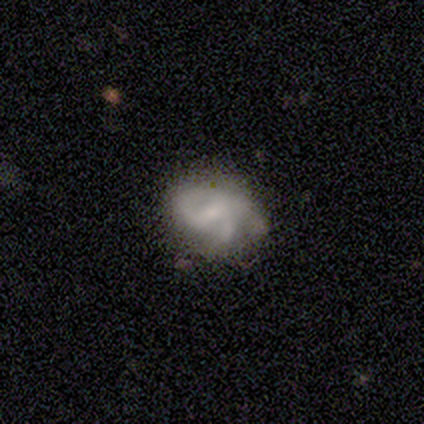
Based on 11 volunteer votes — Smooth or featured? 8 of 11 (73%) said featured or disk. Edge-on disk? 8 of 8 (100%) said no. Bar? 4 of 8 (50%) said weak. Spiral arms? 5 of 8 (62%) said yes. Spiral winding? 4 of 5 (80%) said medium. Spiral arm count? 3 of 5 (60%) said 2. Bulge size? 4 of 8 (50%, tied with small) said moderate. Merging? 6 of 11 (55%) said minor disturbance.